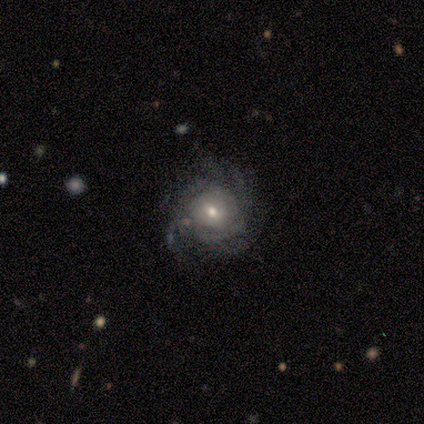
This is clearly a featured or disk galaxy (81%). It is clearly not viewed edge-on (100%). Bar: likely no (61%). Spiral arm pattern: clearly yes (89%). Spiral arm count: marginally more than 4 (38%). Spiral winding: likely tight (60%). Central bulge: possibly moderate (54%). Merging: likely none (62%).